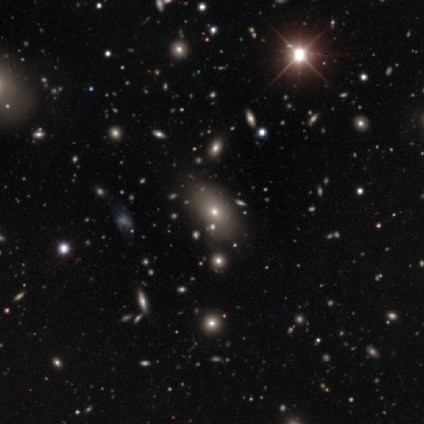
This is likely a featured or disk galaxy (60%). It is clearly not viewed edge-on (100%). Bar: clearly no (100%). Spiral arm pattern: clearly no (100%). Central bulge: likely moderate (67%). Merging: clearly none (100%).